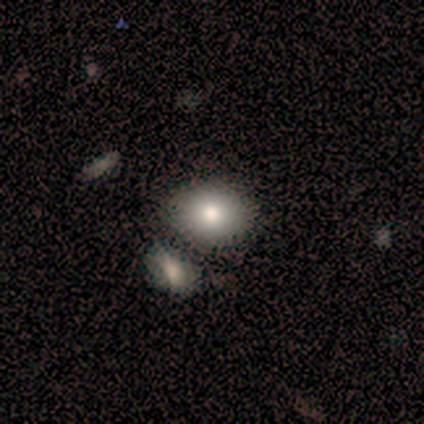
Smooth or featured? 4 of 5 (80%) said smooth. How rounded? 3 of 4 (75%) said in between. Merging? 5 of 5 (100%) said none.